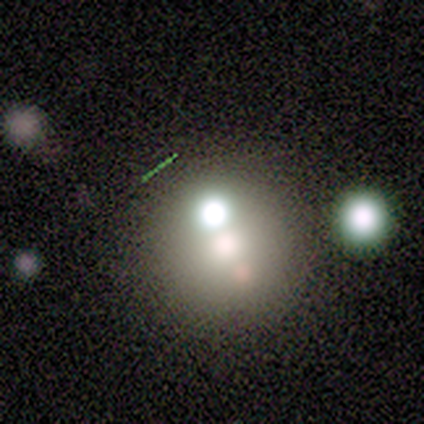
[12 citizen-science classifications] Smooth or featured?
  - featured or disk: 67% *
  - smooth: 17%
  - star or artifact: 17%
Edge-on disk?
  - no: 100% *
  - yes: 0%
Bar?
  - no: 100% *
  - strong: 0%
  - weak: 0%
Spiral arms?
  - no: 100% *
  - yes: 0%
Bulge size?
  - large: 25% * (tied)
  - moderate: 25% * (tied)
  - none: 25% * (tied)
  - dominant: 12%
  - small: 12%
Merging?
  - none: 50% * (tied)
  - merger: 50% * (tied)
  - minor disturbance: 0%
  - major disturbance: 0%